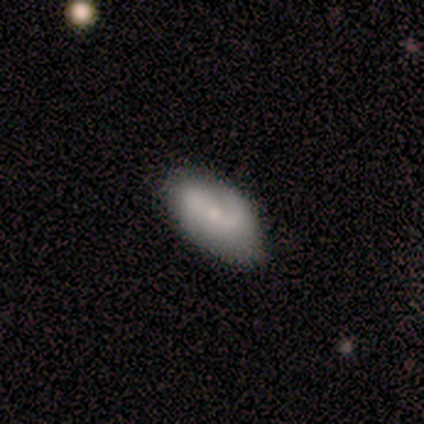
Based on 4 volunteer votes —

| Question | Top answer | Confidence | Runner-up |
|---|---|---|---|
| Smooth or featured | featured or disk | 100% | — |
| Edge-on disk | no | 100% | — |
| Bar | weak | 75% | strong (25%) |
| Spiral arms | yes | 75% | no (25%) |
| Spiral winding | medium | 67% | loose (33%) |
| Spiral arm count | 2 | 67% | 1 (33%) |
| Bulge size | moderate | 50% | large (25%) |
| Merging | none | 100% | — |